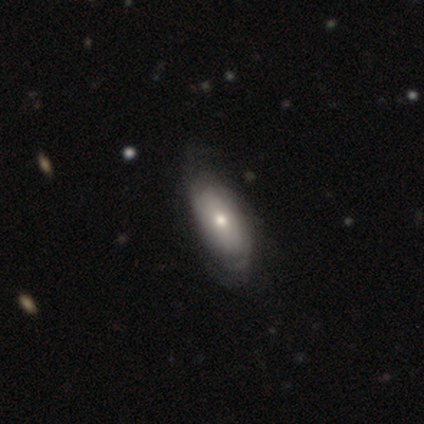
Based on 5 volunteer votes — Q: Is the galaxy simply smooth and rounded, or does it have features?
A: featured or disk — 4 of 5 (80%).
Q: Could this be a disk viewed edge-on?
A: no — 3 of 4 (75%).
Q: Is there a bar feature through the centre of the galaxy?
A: no — 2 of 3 (67%).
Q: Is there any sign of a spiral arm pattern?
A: yes — 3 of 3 (100%).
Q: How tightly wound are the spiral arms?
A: tight — 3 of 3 (100%).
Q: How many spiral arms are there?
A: can't tell — 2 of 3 (67%).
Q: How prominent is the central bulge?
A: moderate — 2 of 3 (67%).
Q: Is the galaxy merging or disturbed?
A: none — 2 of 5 (40%, tied with minor disturbance).